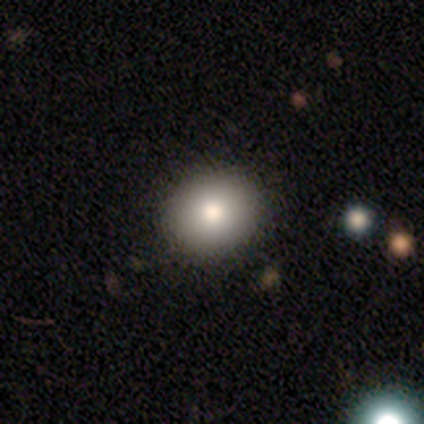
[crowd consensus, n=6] Smooth or featured?
  - smooth: 67% *
  - featured or disk: 17%
  - star or artifact: 17%
How rounded?
  - round: 50% * (tied)
  - in between: 50% * (tied)
  - cigar-shaped: 0%
Merging?
  - none: 80% *
  - major disturbance: 20%
  - minor disturbance: 0%
  - merger: 0%